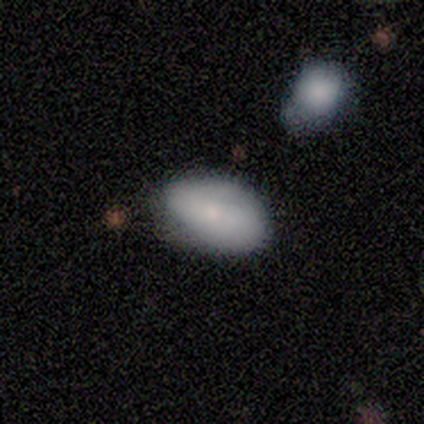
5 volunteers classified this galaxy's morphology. smooth 80%, featured or disk 20%, star or artifact 0%. Down the decision tree: how rounded — in between (100%); merging — none (100%).